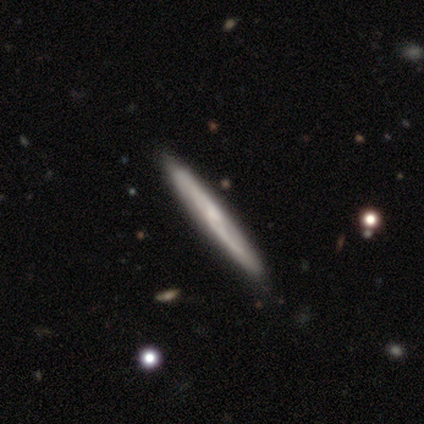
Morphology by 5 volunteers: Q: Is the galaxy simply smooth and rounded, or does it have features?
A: featured or disk — 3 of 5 (60%).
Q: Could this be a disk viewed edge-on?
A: yes — 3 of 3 (100%).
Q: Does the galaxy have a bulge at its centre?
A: none — 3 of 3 (100%).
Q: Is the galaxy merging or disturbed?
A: none — 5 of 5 (100%).